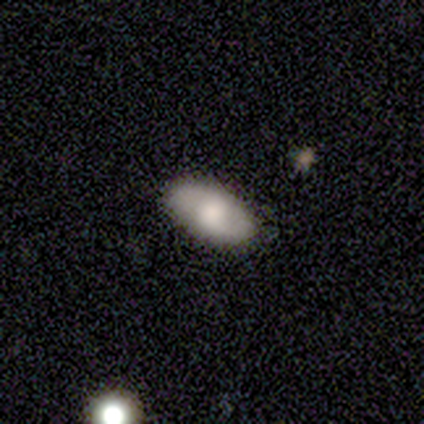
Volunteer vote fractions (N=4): A smooth galaxy with no disk features (50%, tied with featured or disk) that is in between round and cigar-shaped (100%).

Vote fractions:
- Smooth or featured? smooth: 50% (tied) / featured or disk: 50% (tied) / star or artifact: 0%
- How rounded? in between: 100% / round: 0% / cigar-shaped: 0%
- Merging? none: 75% / minor disturbance: 25% / major disturbance: 0% / merger: 0%